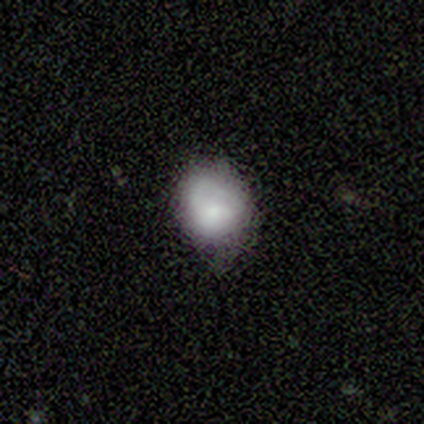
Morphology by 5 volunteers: This appears to be a smooth galaxy with no disk features (80%) that is round (75%). Merging: none (80%).